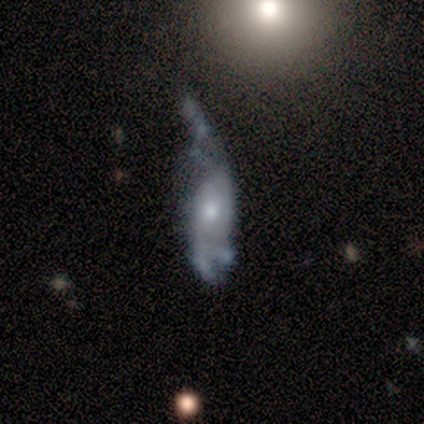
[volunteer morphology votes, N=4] smooth_or_featured: smooth (p=0.50) [tied with: featured or disk p=0.50]
how_rounded: in between (p=1.00)
merging: major disturbance (p=0.50) [alt: minor disturbance p=0.25]